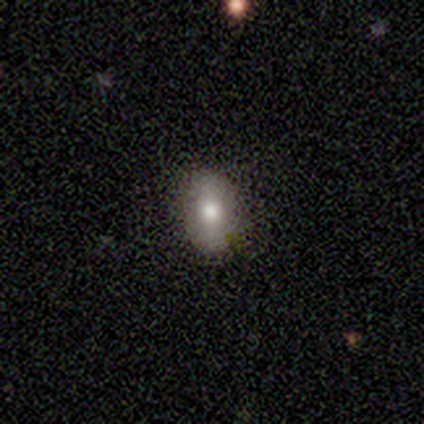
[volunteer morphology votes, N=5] Smooth or featured: smooth — 40% (tied with featured or disk — 40%)
How rounded: in between — 100%
Merging: none — 50% (minor disturbance — 25%)